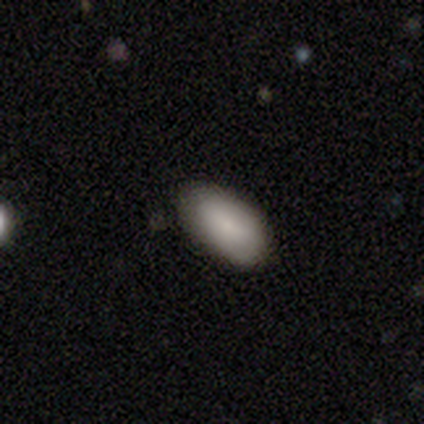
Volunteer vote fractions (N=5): Smooth or featured? 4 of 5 (80%) said smooth. How rounded? 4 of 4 (100%) said in between. Merging? 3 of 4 (75%) said none.